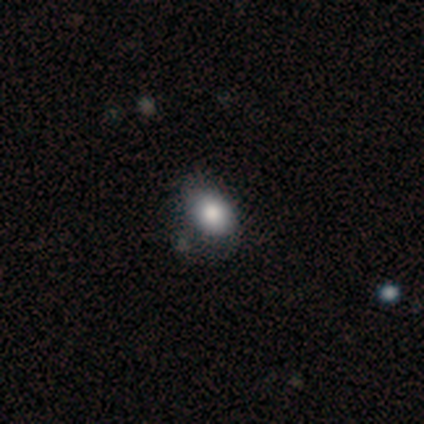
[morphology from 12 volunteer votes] This is clearly a smooth galaxy (83%). How rounded: likely in between (70%). Merging: possibly none (50%).